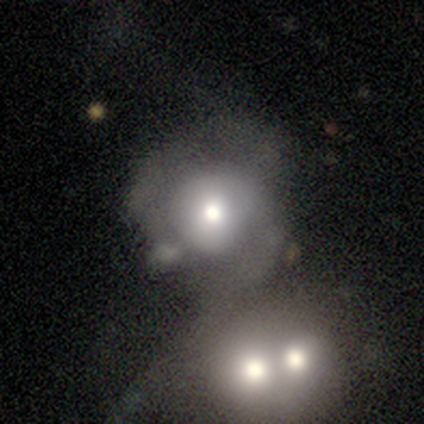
smooth_or_featured: smooth (p=0.50) [alt: featured or disk p=0.45]
how_rounded: round (p=0.84) [alt: in between p=0.16]
merging: merger (p=0.61) [alt: none p=0.17]